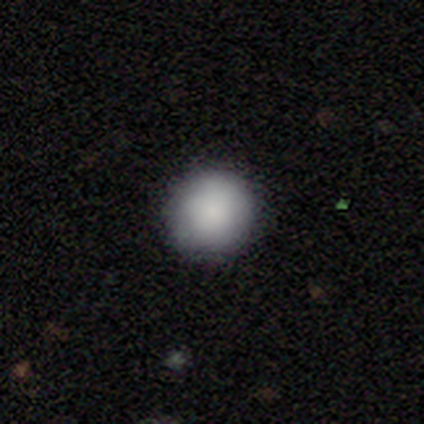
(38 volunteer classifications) Smooth or featured?
  - smooth: 89% *
  - featured or disk: 5%
  - star or artifact: 5%
How rounded?
  - round: 97% *
  - in between: 3%
  - cigar-shaped: 0%
Merging?
  - none: 89% *
  - minor disturbance: 8%
  - major disturbance: 3%
  - merger: 0%